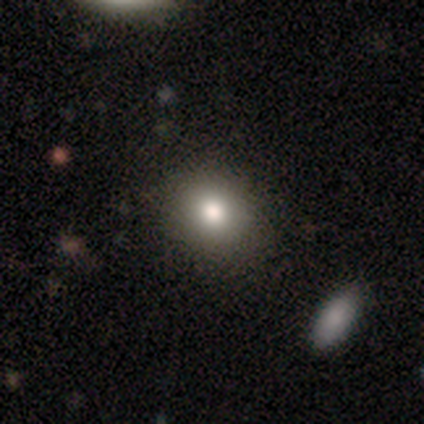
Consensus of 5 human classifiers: Smooth or featured: smooth — 100%
How rounded: round — 60% (in between — 40%)
Merging: none — 60% (minor disturbance — 40%)